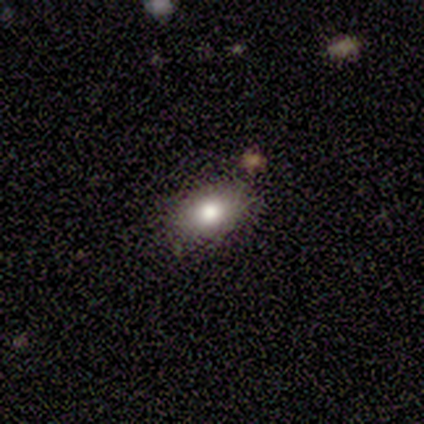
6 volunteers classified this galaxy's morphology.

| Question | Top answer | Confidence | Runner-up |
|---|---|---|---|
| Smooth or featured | smooth | 83% | star or artifact (17%) |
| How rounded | in between | 80% | round (20%) |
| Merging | none | 100% | — |